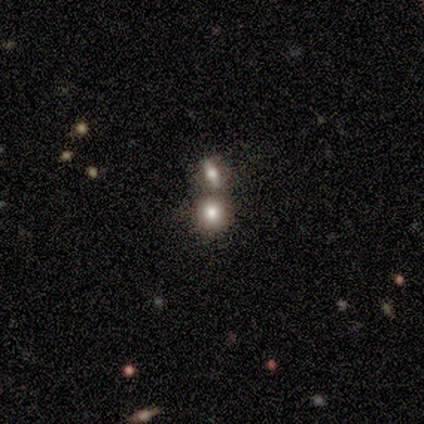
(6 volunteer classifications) smooth-or-featured: smooth: 100% | featured or disk: 0% | star or artifact: 0%
  how-rounded: round: 100% | in between: 0% | cigar-shaped: 0%
  merging: none: 50% | merger: 33% | minor disturbance: 17% | major disturbance: 0%